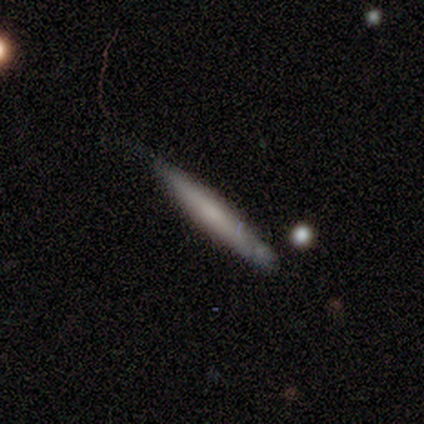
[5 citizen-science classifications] Smooth or featured? 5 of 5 (100%) said smooth. How rounded? 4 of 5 (80%) said cigar-shaped. Merging? 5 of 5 (100%) said none.